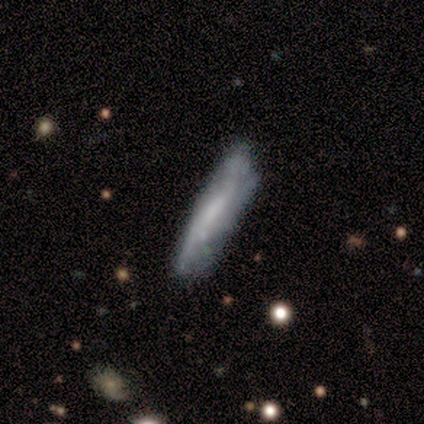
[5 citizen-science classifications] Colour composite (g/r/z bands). It shows a smooth galaxy with no disk features (80%) that is cigar-shaped (100%). Merging: none (75%).